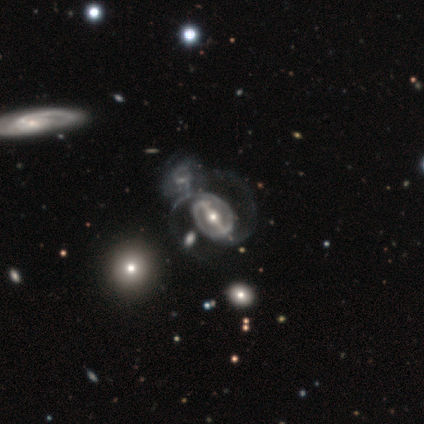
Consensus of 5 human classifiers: Morphology: type=featured or disk (80%); edge-on=no (75%); bar=strong (67%); spiral arms=yes (100%); winding=medium (100%); arm count=2 (100%); bulge=moderate (67%); merging=none (75%).